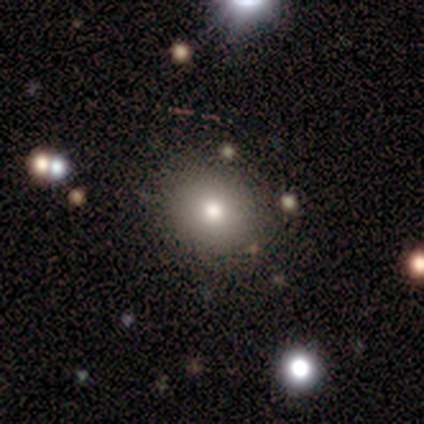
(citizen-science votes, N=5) Smooth or featured?
  - smooth: 100% *
  - featured or disk: 0%
  - star or artifact: 0%
How rounded?
  - round: 100% *
  - in between: 0%
  - cigar-shaped: 0%
Merging?
  - none: 80% *
  - minor disturbance: 20%
  - major disturbance: 0%
  - merger: 0%